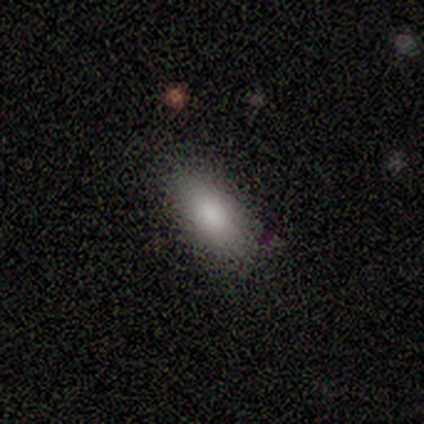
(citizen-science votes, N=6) A smooth galaxy with no disk features (83%) that is in between round and cigar-shaped (100%).

Vote fractions:
- Smooth or featured? smooth: 83% / featured or disk: 17% / star or artifact: 0%
- How rounded? in between: 100% / round: 0% / cigar-shaped: 0%
- Merging? none: 83% / minor disturbance: 17% / major disturbance: 0% / merger: 0%